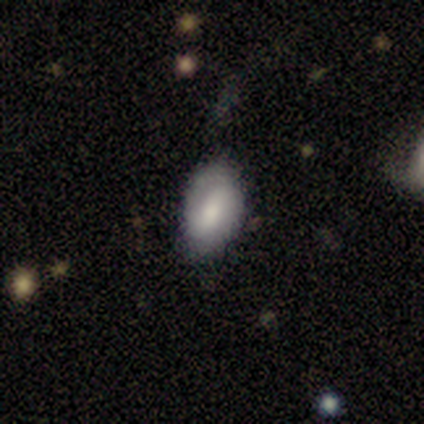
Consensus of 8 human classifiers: smooth-or-featured: smooth: 75% | featured or disk: 25% | star or artifact: 0%
  how-rounded: in between: 100% | round: 0% | cigar-shaped: 0%
  merging: none: 50% (tied) | minor disturbance: 50% (tied) | major disturbance: 0% | merger: 0%